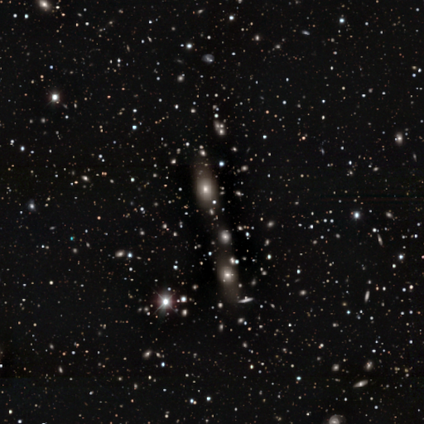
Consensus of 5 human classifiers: Smooth or featured? 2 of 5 (40%, tied with star or artifact) said featured or disk. Edge-on disk? 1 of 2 (50%, tied with no) said yes. Edge-on bulge? 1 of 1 (100%) said rounded. Merging? 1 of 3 (33%, tied with minor disturbance and major disturbance) said none.